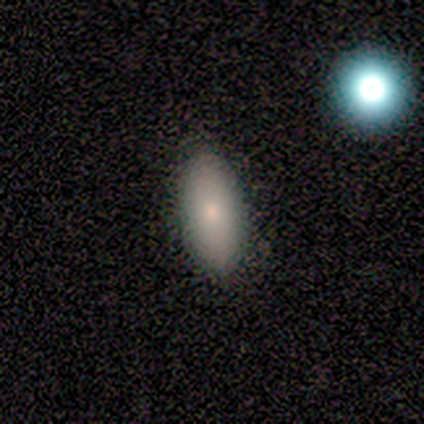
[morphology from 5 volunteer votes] smooth-or-featured: smooth: 100% | featured or disk: 0% | star or artifact: 0%
  how-rounded: in between: 80% | cigar-shaped: 20% | round: 0%
  merging: none: 100% | minor disturbance: 0% | major disturbance: 0% | merger: 0%